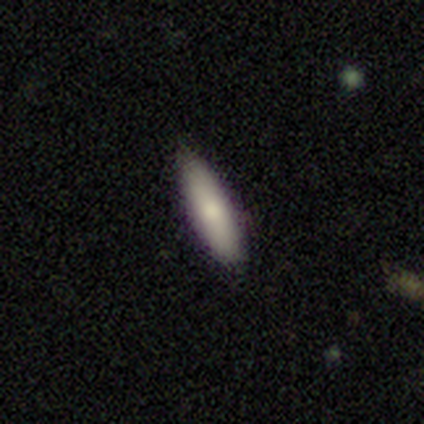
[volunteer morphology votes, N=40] Smooth or featured?
  - smooth: 80% *
  - featured or disk: 18%
  - star or artifact: 2%
How rounded?
  - cigar-shaped: 69% *
  - in between: 28%
  - round: 3%
Merging?
  - none: 90% *
  - minor disturbance: 5%
  - major disturbance: 3%
  - merger: 3%